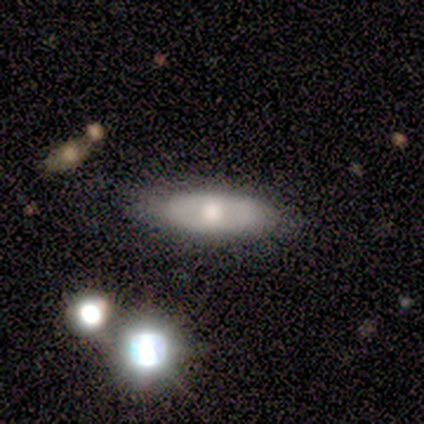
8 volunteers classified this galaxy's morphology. Smooth or featured? smooth (50%)
How rounded? in between (75%)
Merging? none (86%)